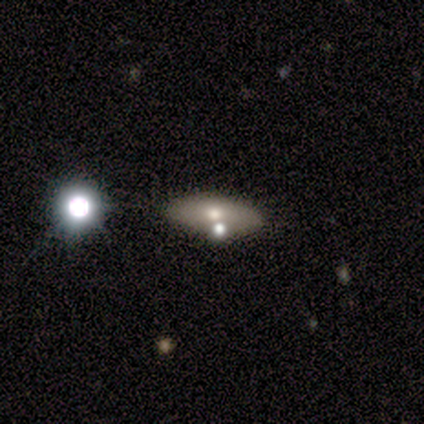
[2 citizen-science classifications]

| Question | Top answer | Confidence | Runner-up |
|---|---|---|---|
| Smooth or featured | smooth | 50% | tied: featured or disk (50%) |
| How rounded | in between | 100% | — |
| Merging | none | 50% | tied: merger (50%) |